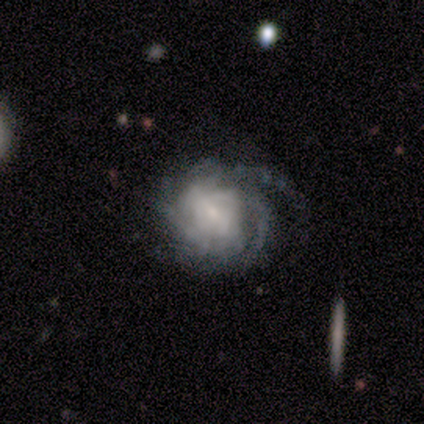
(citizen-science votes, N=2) A featured or disk galaxy (100%) with a weak bar (50%, tied with no), more than 4 (50%, tied with can't tell) tight (50%, tied with medium) spiral arms (100%) and a moderate central bulge (50%, tied with none).

Vote fractions:
- Smooth or featured? featured or disk: 100% / smooth: 0% / star or artifact: 0%
- Edge-on disk? no: 100% / yes: 0%
- Bar? weak: 50% (tied) / no: 50% (tied) / strong: 0%
- Spiral arms? yes: 100% / no: 0%
- Spiral winding? tight: 50% (tied) / medium: 50% (tied) / loose: 0%
- Spiral arm count? more than 4: 50% (tied) / can't tell: 50% (tied) / 1: 0% / 2: 0% / 3: 0% / 4: 0%
- Bulge size? moderate: 50% (tied) / none: 50% (tied) / dominant: 0% / large: 0% / small: 0%
- Merging? none: 50% (tied) / major disturbance: 50% (tied) / minor disturbance: 0% / merger: 0%